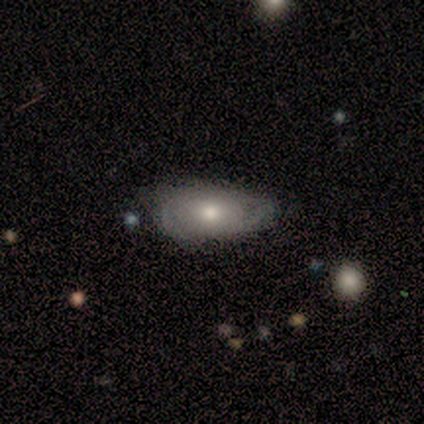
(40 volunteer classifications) This appears to be a smooth galaxy with no disk features (52%) that is in between round and cigar-shaped (95%). Merging: none (54%).